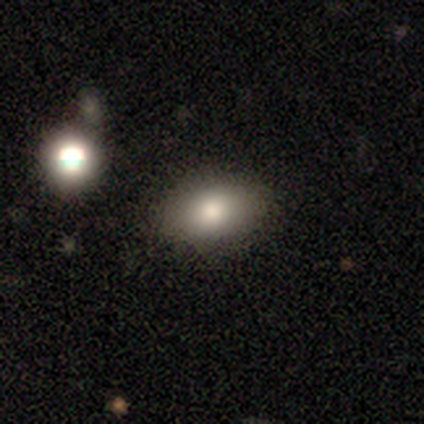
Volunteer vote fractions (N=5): This appears to be a smooth galaxy with no disk features (100%) that is in between round and cigar-shaped (100%). Merging: none (100%).